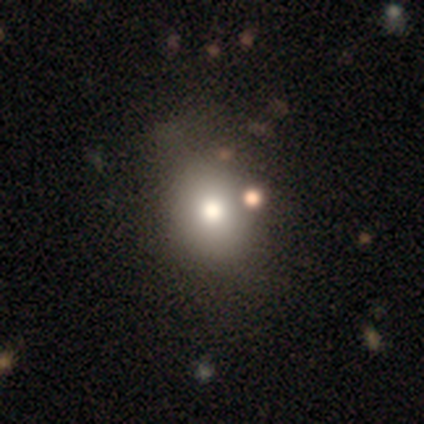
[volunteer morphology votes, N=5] Q: Smooth or featured?
A: smooth (60%); runner-up: featured or disk (40%)
Q: How rounded?
A: round (100%)
Q: Merging?
A: none (100%)